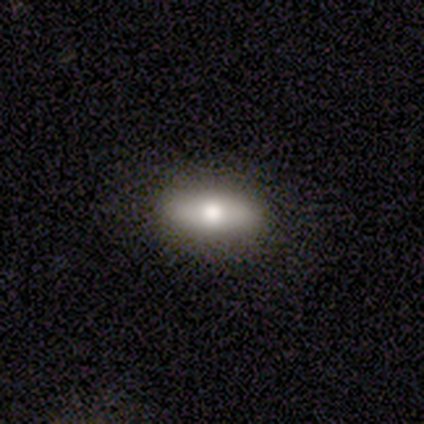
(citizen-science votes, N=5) Overall: smooth (80%). How rounded: in between (50%, tied with cigar-shaped). Merging: none (100%).